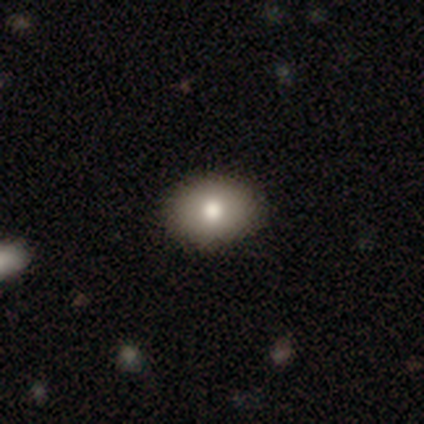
Smooth or featured?
  - smooth: 82% *
  - featured or disk: 10%
  - star or artifact: 8%
How rounded?
  - in between: 75% *
  - round: 25%
  - cigar-shaped: 0%
Merging?
  - none: 94% *
  - minor disturbance: 6%
  - major disturbance: 0%
  - merger: 0%